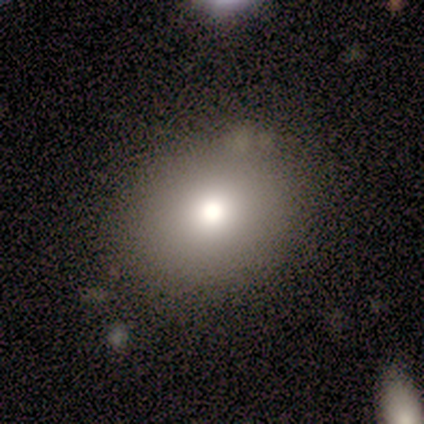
This appears to be a smooth galaxy with no disk features (82%) that is round (71%). Merging: none (91%).